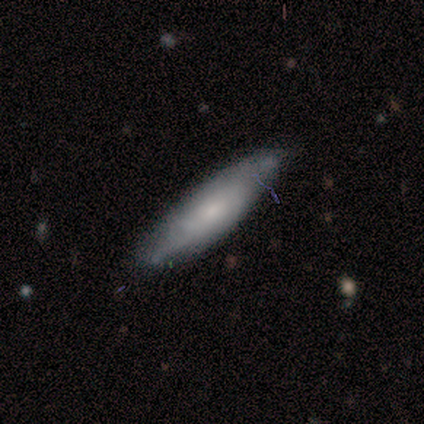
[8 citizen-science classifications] Smooth or featured: smooth — 75% (featured or disk — 25%)
How rounded: cigar-shaped — 83% (in between — 17%)
Merging: none — 88% (minor disturbance — 12%)